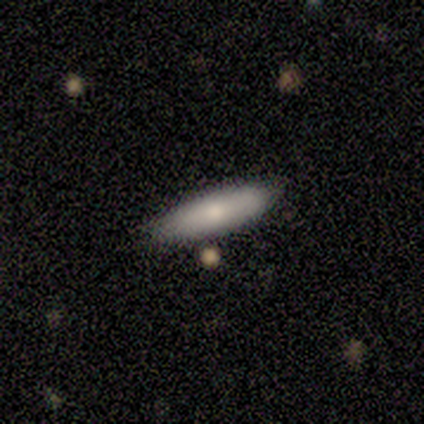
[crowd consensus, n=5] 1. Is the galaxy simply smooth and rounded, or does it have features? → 100% smooth, 0% featured or disk, 0% star or artifact.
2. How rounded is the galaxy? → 60% in between, 40% cigar-shaped, 0% round.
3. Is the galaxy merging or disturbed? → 100% none, 0% minor disturbance, 0% major disturbance, 0% merger.